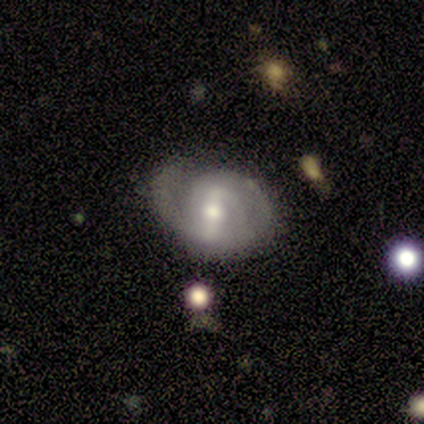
Smooth or featured? featured or disk (80%)
Edge-on disk? no (100%)
Bar? strong (75%)
Spiral arms? yes (75%)
Spiral winding? loose (67%)
Spiral arm count? 2 (100%)
Bulge size? moderate (100%)
Merging? none (60%)